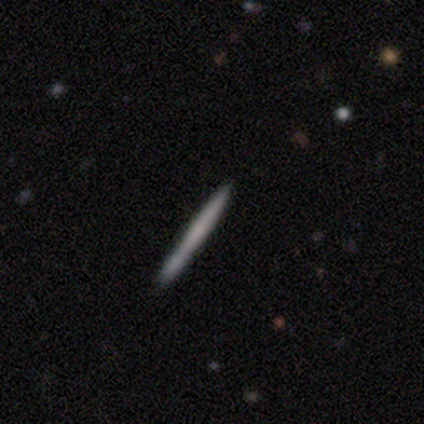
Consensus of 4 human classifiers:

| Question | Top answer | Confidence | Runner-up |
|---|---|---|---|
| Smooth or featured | featured or disk | 100% | — |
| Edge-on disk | yes | 100% | — |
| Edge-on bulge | none | 100% | — |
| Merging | none | 100% | — |